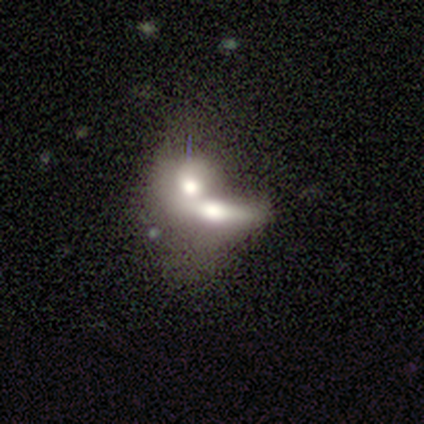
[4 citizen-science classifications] smooth 75%, featured or disk 25%, star or artifact 0%. Down the decision tree: how rounded — in between (67%); merging — merger (50%).